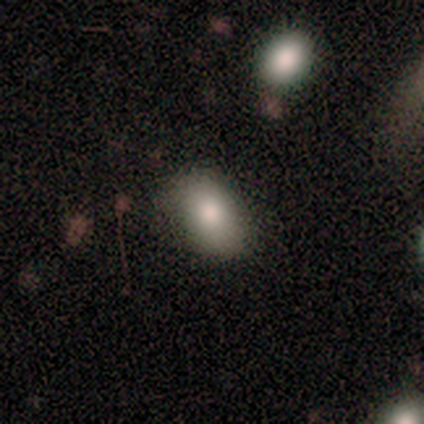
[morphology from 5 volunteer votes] smooth-or-featured: smooth: 100% | featured or disk: 0% | star or artifact: 0%
  how-rounded: in between: 60% | round: 40% | cigar-shaped: 0%
  merging: none: 100% | minor disturbance: 0% | major disturbance: 0% | merger: 0%